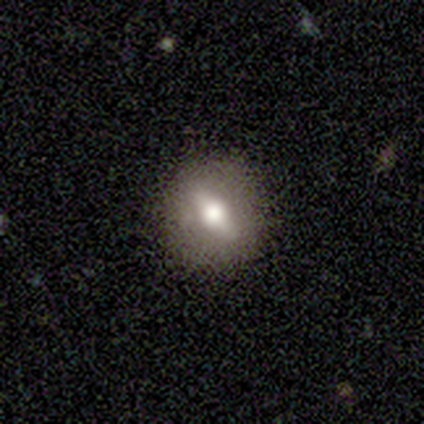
Smooth or featured: smooth — 40% (tied with featured or disk — 40%)
How rounded: round — 50% (tied with cigar-shaped — 50%)
Merging: none — 100%